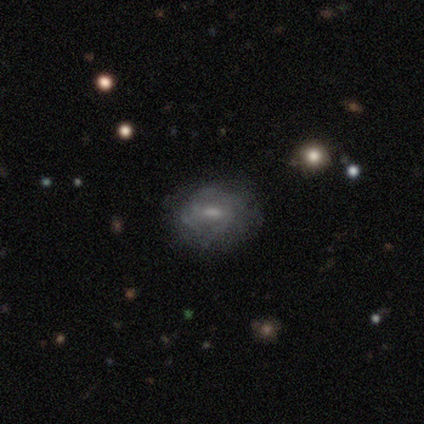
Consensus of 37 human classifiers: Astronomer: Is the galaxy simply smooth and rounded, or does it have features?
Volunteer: featured or disk — 54% (runner-up: smooth, 41%).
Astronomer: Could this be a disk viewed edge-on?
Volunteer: no — 90%.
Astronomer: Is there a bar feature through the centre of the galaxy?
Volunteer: weak — 56% (runner-up: no, 39%).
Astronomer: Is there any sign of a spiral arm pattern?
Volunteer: yes — 56% (runner-up: no, 44%).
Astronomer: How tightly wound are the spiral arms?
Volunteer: tight — 40% (runner-up: medium, 30%).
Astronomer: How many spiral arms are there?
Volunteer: can't tell — 50% (runner-up: 2, 30%).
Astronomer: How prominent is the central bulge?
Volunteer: small — 61%.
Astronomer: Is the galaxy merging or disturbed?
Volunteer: none — 66%.